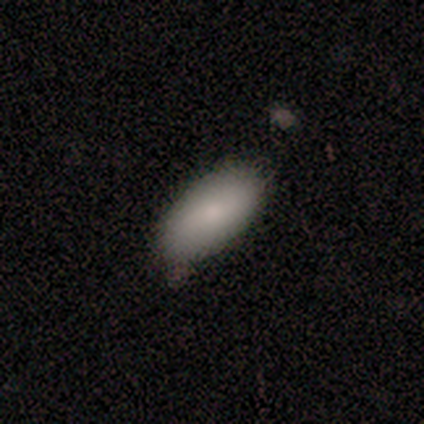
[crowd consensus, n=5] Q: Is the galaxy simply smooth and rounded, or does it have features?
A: smooth — 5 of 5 (100%).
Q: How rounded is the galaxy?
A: in between — 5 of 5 (100%).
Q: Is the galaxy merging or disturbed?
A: none — 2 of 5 (40%, tied with minor disturbance).